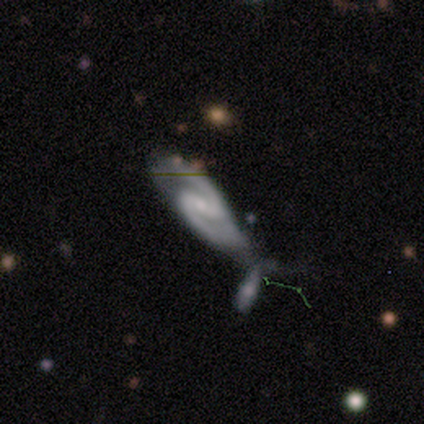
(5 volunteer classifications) This appears to be a featured or disk galaxy (80%) with a weak bar (50%), 2 (100%) medium (75%) spiral arms (100%) and a small central bulge (100%). Merging: merger (100%).